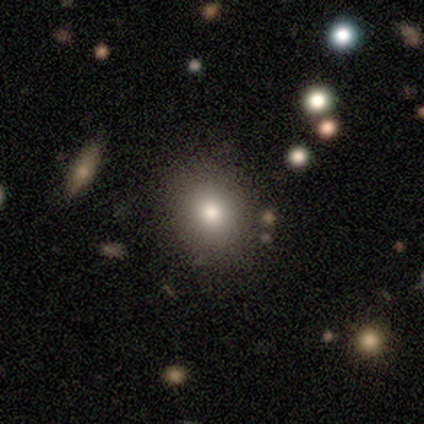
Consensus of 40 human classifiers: smooth-or-featured: smooth: 82% | featured or disk: 12% | star or artifact: 5%
  how-rounded: round: 55% | in between: 42% | cigar-shaped: 3%
  merging: none: 63% | merger: 8% | minor disturbance: 5% | major disturbance: 0%